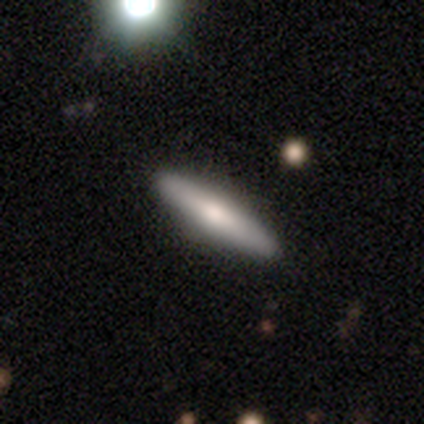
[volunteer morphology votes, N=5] Smooth or featured: featured or disk — 60% (smooth — 40%)
Edge-on disk: yes — 100%
Edge-on bulge: rounded — 100%
Merging: none — 100%